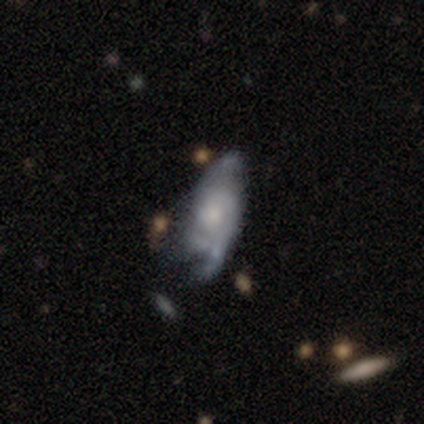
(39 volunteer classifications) Smooth or featured: featured or disk — 72% (smooth — 15%)
Edge-on disk: no — 96% (yes — 4%)
Bar: no — 85% (weak — 15%)
Spiral arms: yes — 78% (no — 22%)
Spiral winding: tight — 38% (medium — 33%)
Spiral arm count: 2 — 48% (can't tell — 43%)
Bulge size: small — 44% (moderate — 37%)
Merging: minor disturbance — 38% (major disturbance — 26%)